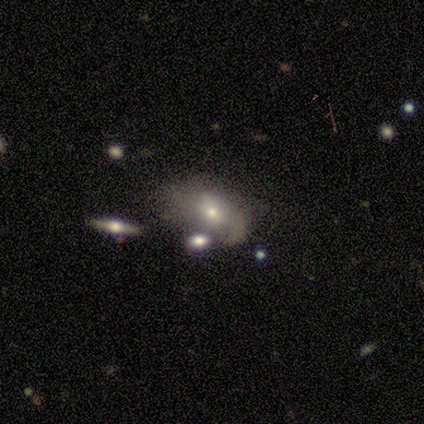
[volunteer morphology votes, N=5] Smooth or featured? 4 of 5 (80%) said smooth. How rounded? 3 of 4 (75%) said in between. Merging? 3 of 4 (75%) said major disturbance.